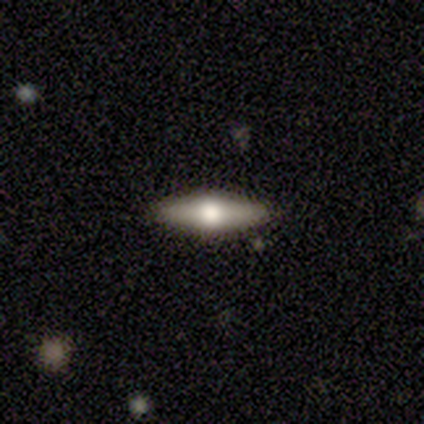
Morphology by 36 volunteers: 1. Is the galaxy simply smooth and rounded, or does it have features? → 53% featured or disk, 42% smooth, 6% star or artifact.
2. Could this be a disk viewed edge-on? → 84% yes, 16% no.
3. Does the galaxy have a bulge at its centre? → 94% rounded, 6% boxy, 0% none.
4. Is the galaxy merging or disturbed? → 91% none, 6% minor disturbance, 3% merger, 0% major disturbance.